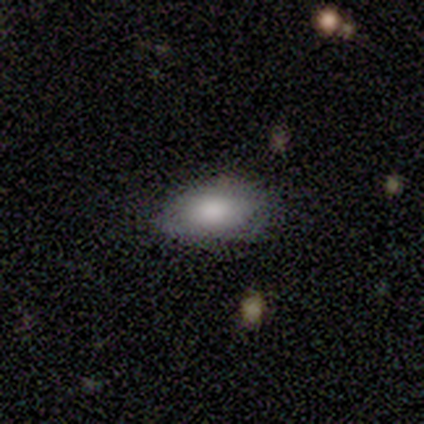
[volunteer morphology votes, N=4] type=smooth (100%); roundness=in between (100%); merging=none (100%).